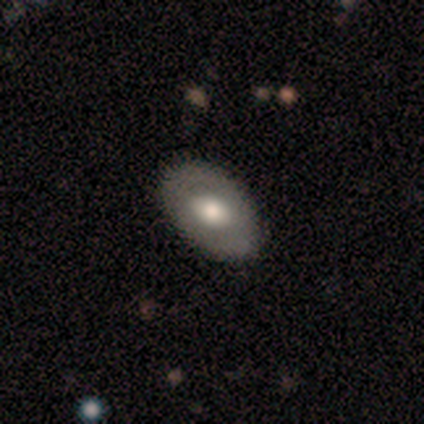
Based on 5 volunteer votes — Overall: featured or disk (80%). Edge-on disk: no (100%). Bar: no (100%). Spiral arms: no (75%). Bulge size: moderate (75%). Merging: none (100%).